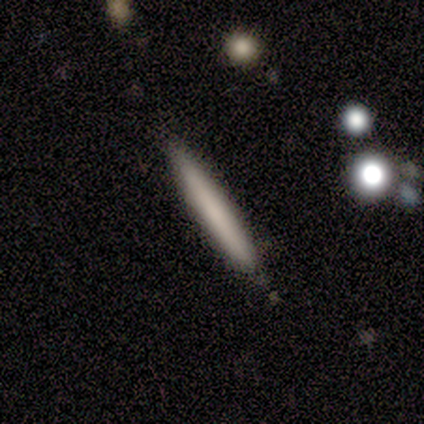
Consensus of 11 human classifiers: smooth 64%, featured or disk 36%, star or artifact 0%. Down the decision tree: how rounded — cigar-shaped (100%); merging — none (91%).